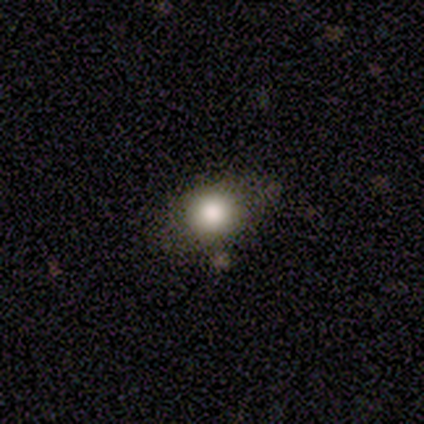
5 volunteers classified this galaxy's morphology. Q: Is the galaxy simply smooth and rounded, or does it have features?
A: smooth — 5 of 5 (100%).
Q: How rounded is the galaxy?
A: in between — 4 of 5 (80%).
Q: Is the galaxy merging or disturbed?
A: none — 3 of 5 (60%).